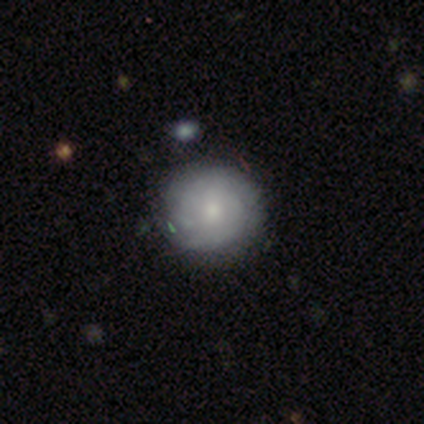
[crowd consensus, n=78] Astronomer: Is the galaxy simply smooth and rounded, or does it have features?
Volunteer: featured or disk — 47% (runner-up: smooth, 45%).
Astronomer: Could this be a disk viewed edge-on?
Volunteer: no — 100%.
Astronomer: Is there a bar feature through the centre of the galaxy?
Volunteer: no — 84%.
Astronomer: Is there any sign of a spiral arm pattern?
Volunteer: yes — 86%.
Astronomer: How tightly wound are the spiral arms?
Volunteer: tight — 75%.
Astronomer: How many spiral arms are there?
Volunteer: can't tell — 66%.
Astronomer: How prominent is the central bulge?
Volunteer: moderate — 59%.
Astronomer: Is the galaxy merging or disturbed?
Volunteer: none — 43%.